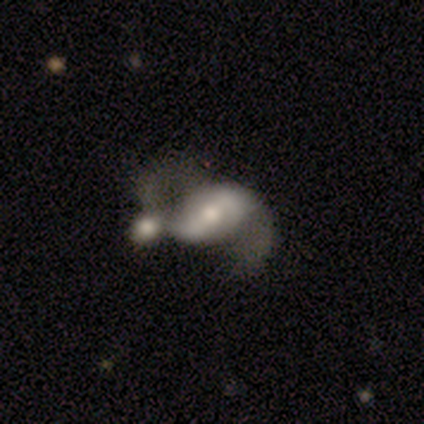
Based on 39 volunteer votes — Volunteers were most divided on "bar": strong: 41%, weak: 38%, no: 21%. Remaining: edge-on disk — no (100%); spiral arm count — 2 (92%); spiral arms — yes (86%); spiral winding — loose (80%); smooth or featured — featured or disk (74%); bulge size — moderate (69%); merging — merger (49%).